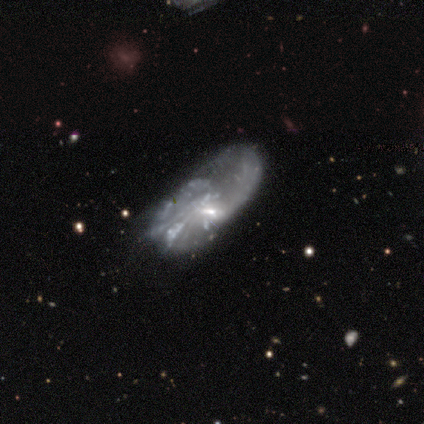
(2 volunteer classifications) A featured or disk galaxy (100%) with a strong bar (50%, tied with no), 2 (50%, tied with can't tell) loose (100%) spiral arms (100%) and a small central bulge (50%, tied with none). Merging: none (50%, tied with major disturbance).